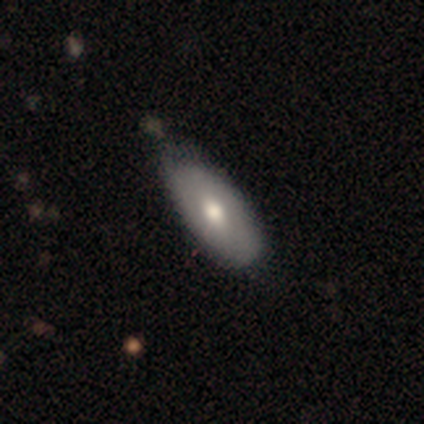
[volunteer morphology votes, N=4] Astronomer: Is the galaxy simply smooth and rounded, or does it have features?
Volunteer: smooth — 75%.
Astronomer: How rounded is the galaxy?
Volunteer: in between — 67%.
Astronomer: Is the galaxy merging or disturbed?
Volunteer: none — 75%.